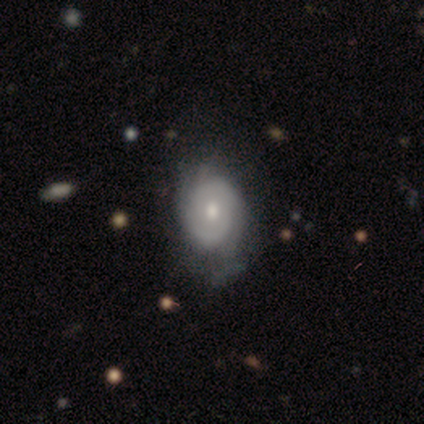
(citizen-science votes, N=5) Volunteers were most divided on "bulge size" (2-way tie): moderate: 40%, small: 40%, dominant: 20%, large: 0%, none: 0%. More confident: smooth or featured — featured or disk (100%); edge-on disk — no (100%); bar — no (100%); spiral winding — tight (100%); spiral arm count — can't tell (67%); spiral arms — yes (60%); merging — none (60%).